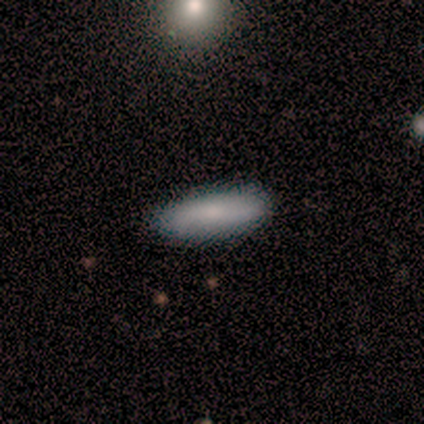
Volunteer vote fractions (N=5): This appears to be a smooth galaxy with no disk features (60%) that is in between round and cigar-shaped (67%). Merging: none (100%).